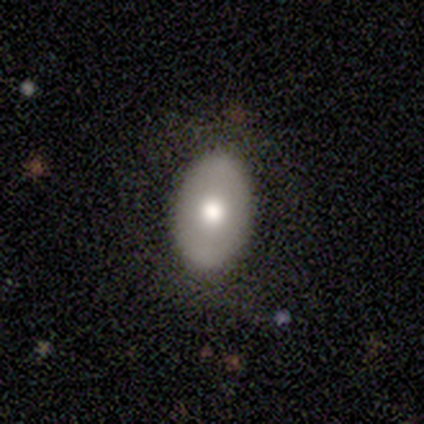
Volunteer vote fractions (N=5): smooth 80%, featured or disk 20%, star or artifact 0%. Down the decision tree: how rounded — in between (100%); merging — none (80%).